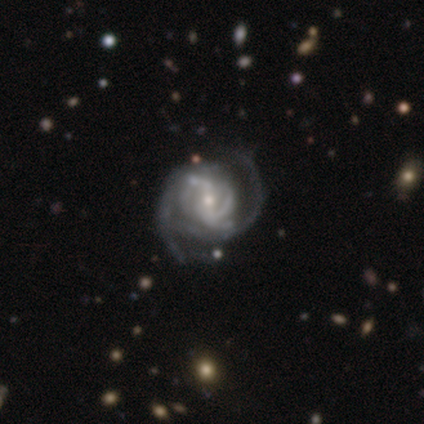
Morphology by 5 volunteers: Q: Smooth or featured?
A: featured or disk (100%)
Q: Edge-on disk?
A: no (100%)
Q: Bar?
A: weak (80%); runner-up: strong (20%)
Q: Spiral arms?
A: yes (80%); runner-up: no (20%)
Q: Spiral winding?
A: tight (50%); tied with: medium (50%)
Q: Spiral arm count?
A: 2 (50%); runner-up: 1 (25%)
Q: Bulge size?
A: small (60%); runner-up: moderate (40%)
Q: Merging?
A: none (60%); runner-up: minor disturbance (40%)